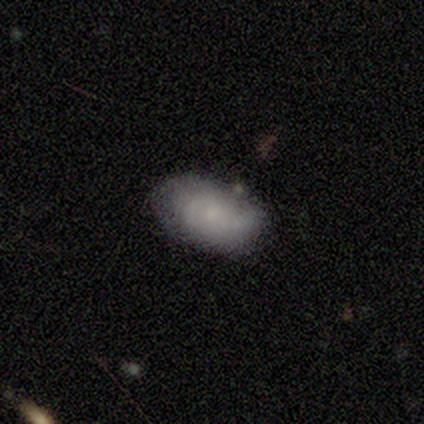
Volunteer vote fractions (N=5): smooth-or-featured: smooth: 40% (tied) | star or artifact: 40% (tied) | featured or disk: 20%
  how-rounded: in between: 100% | round: 0% | cigar-shaped: 0%
  merging: minor disturbance: 67% | none: 33% | major disturbance: 0% | merger: 0%